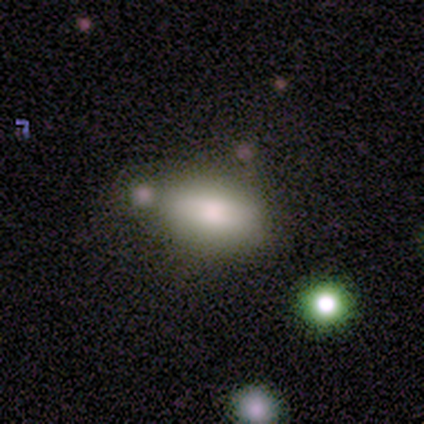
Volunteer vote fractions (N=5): smooth 100%, featured or disk 0%, star or artifact 0%. Down the decision tree: how rounded — in between (60%); merging — none (40%, tied with minor disturbance).